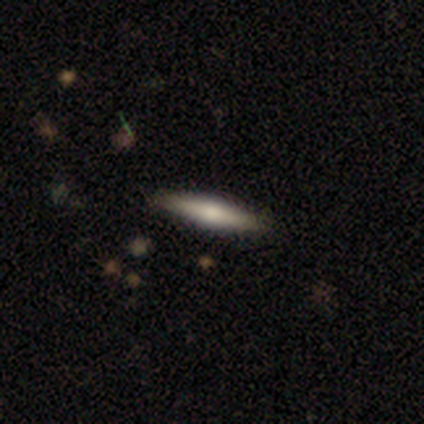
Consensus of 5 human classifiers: Overall: smooth (100%). How rounded: cigar-shaped (80%). Merging: none (100%).